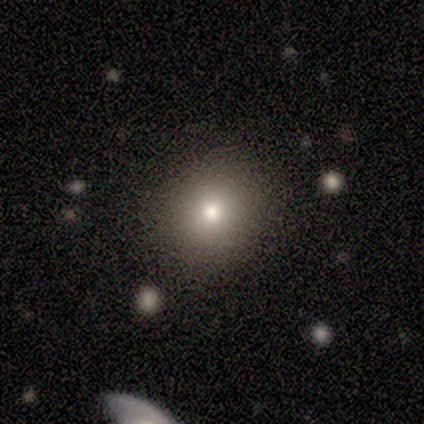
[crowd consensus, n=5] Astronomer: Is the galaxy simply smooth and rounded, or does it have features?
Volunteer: smooth — 100%.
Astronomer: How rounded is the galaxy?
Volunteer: round — 100%.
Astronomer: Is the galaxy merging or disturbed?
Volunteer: none — 60% (runner-up: minor disturbance, 40%).